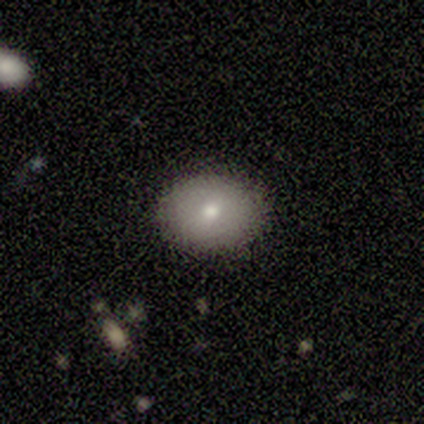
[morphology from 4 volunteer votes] Smooth or featured? 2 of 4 (50%, tied with featured or disk) said smooth. How rounded? 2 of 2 (100%) said in between. Merging? 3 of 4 (75%) said none.